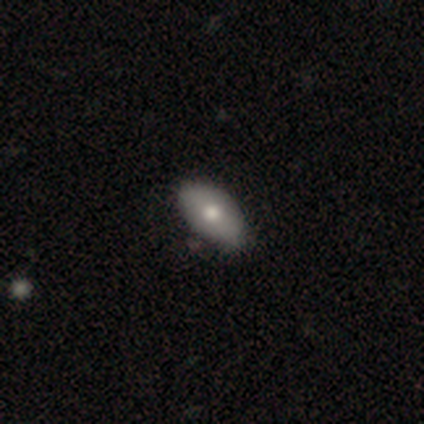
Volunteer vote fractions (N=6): Smooth or featured? 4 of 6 (67%) said smooth. How rounded? 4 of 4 (100%) said in between. Merging? 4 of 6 (67%) said none.